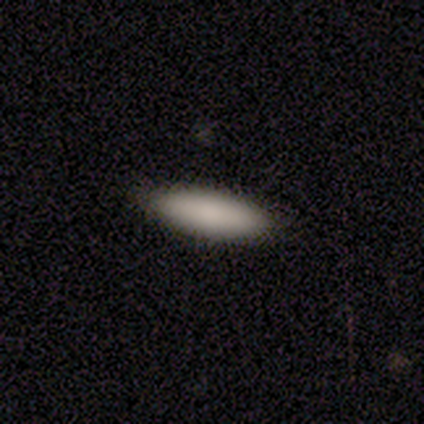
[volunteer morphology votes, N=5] Overall: smooth (80%). How rounded: cigar-shaped (75%). Merging: none (100%).